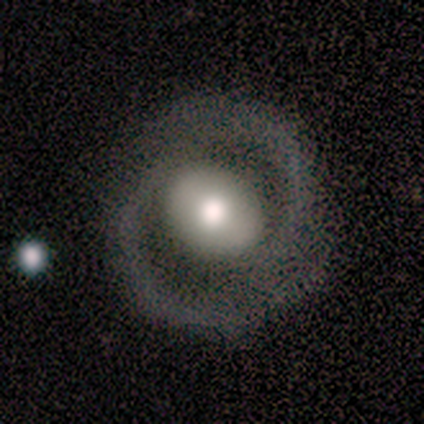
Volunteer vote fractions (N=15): Smooth or featured?
  - featured or disk: 87% *
  - smooth: 7%
  - star or artifact: 7%
Edge-on disk?
  - no: 100% *
  - yes: 0%
Bar?
  - weak: 38% * (tied)
  - no: 38% * (tied)
  - strong: 23%
Spiral arms?
  - yes: 77% *
  - no: 23%
Spiral winding?
  - tight: 50% *
  - medium: 40%
  - loose: 10%
Spiral arm count?
  - 2: 100% *
  - 1: 0%
  - 3: 0%
  - 4: 0%
  - more than 4: 0%
  - can't tell: 0%
Bulge size?
  - moderate: 62% *
  - large: 31%
  - small: 8%
  - dominant: 0%
  - none: 0%
Merging?
  - none: 79% *
  - major disturbance: 14%
  - merger: 7%
  - minor disturbance: 0%